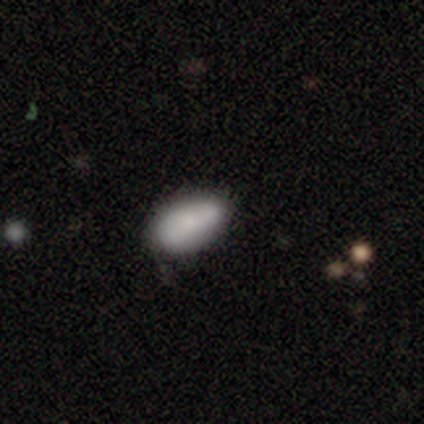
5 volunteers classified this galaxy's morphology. type=smooth (100%); roundness=in between (100%); merging=none (60%).